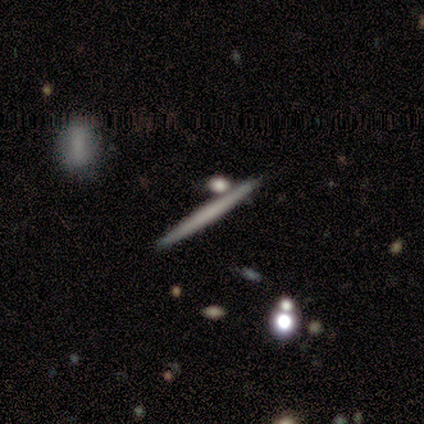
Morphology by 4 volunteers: This appears to be a featured or disk galaxy (75%) viewed edge-on (100%) with no central bulge (100%). Merging: none (100%).